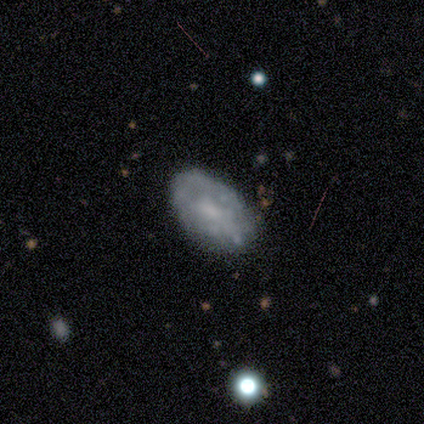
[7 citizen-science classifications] Smooth or featured: featured or disk — 86% (smooth — 14%)
Edge-on disk: no — 100%
Bar: no — 83% (weak — 17%)
Spiral arms: no — 83% (yes — 17%)
Bulge size: none — 50% (small — 33%)
Merging: none — 57% (minor disturbance — 29%)